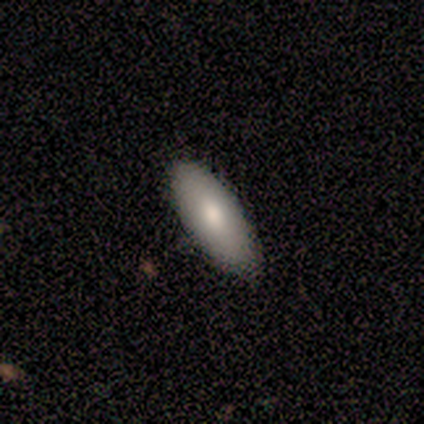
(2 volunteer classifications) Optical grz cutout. It shows a smooth galaxy with no disk features (100%) that is in between round and cigar-shaped (100%). Merging: none (50%, tied with minor disturbance).